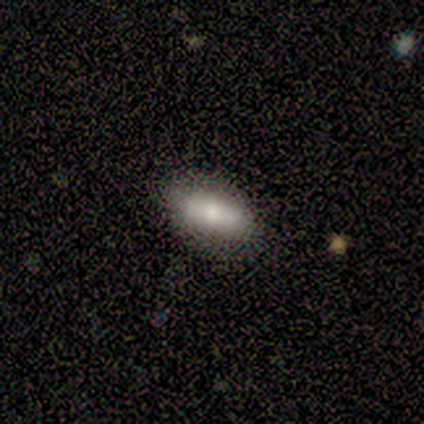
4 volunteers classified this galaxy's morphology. Overall: featured or disk (50%; smooth 25%). Edge-on disk: yes (100%). Edge-on bulge: rounded (100%). Merging: none (100%).